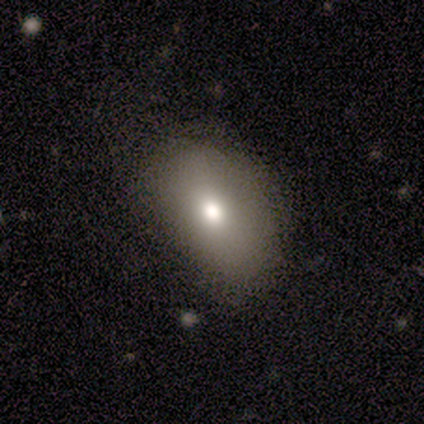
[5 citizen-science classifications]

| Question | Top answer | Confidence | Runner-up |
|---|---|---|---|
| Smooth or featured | featured or disk | 60% | smooth (40%) |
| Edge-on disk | no | 100% | — |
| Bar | no | 67% | weak (33%) |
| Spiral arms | no | 100% | — |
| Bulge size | small | 67% | moderate (33%) |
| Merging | none | 80% | minor disturbance (20%) |